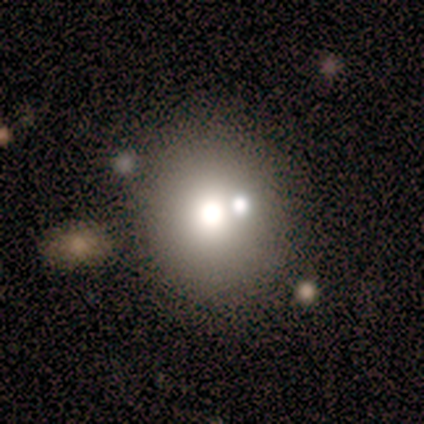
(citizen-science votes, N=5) A smooth galaxy with no disk features (60%) that is round (100%). Merging: none (100%).